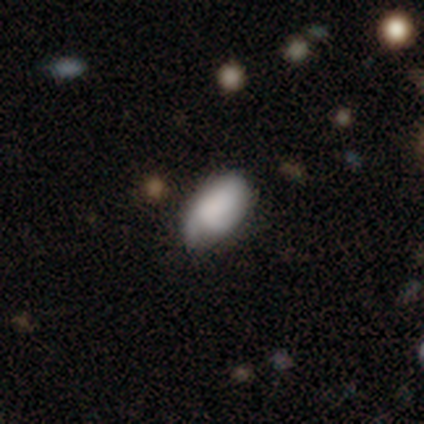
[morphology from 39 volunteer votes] Smooth or featured? smooth (67%)
How rounded? in between (96%)
Merging? none (57%)